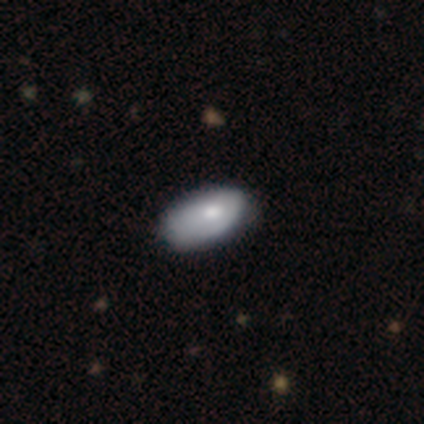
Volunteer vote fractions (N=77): smooth-or-featured: smooth: 77% | featured or disk: 21% | star or artifact: 3%
  how-rounded: in between: 97% | round: 2% | cigar-shaped: 2%
  merging: none: 28% | minor disturbance: 15% | major disturbance: 9% | merger: 3%